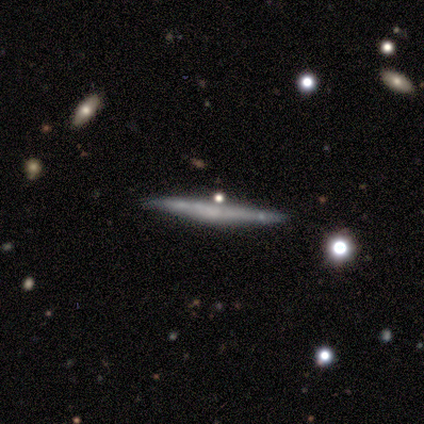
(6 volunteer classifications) Morphology: type=featured or disk (83%); edge-on=yes (100%); edge-on bulge=none (100%); merging=none (100%).